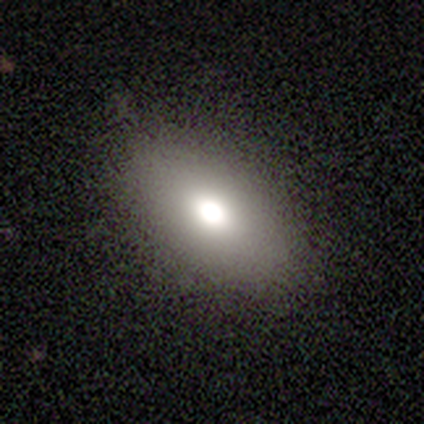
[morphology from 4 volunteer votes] smooth-or-featured: smooth: 100% | featured or disk: 0% | star or artifact: 0%
  how-rounded: in between: 100% | round: 0% | cigar-shaped: 0%
  merging: none: 50% | minor disturbance: 25% | major disturbance: 25% | merger: 0%